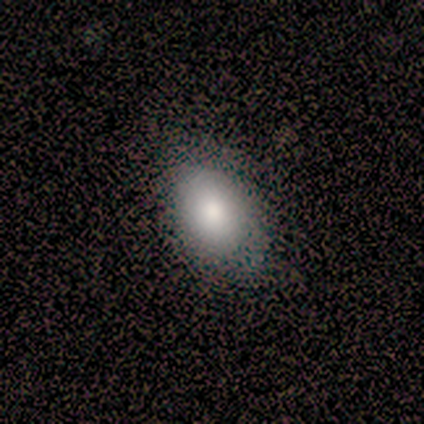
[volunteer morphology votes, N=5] A smooth galaxy with no disk features (80%) that is round (50%, tied with in between). Merging: none (100%).